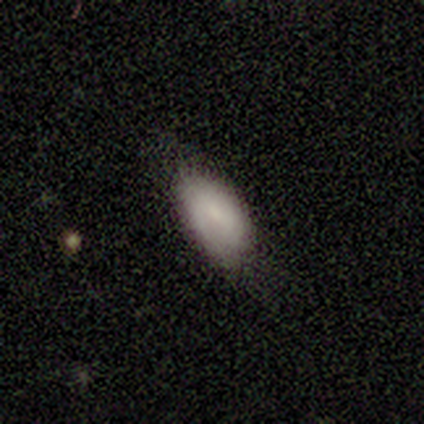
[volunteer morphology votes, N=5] This is clearly a smooth galaxy (100%). How rounded: clearly in between (80%). Merging: marginally none (40%, tied with minor disturbance).